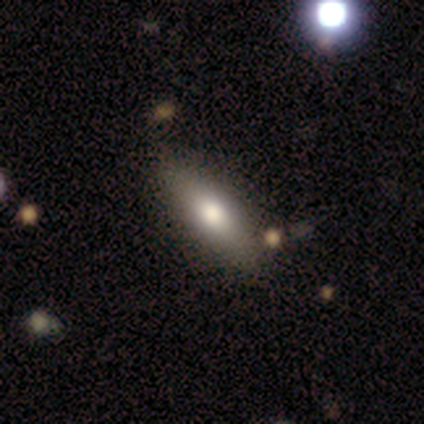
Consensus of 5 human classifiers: smooth 60%, featured or disk 40%, star or artifact 0%. Down the decision tree: how rounded — in between (67%); merging — none (100%).